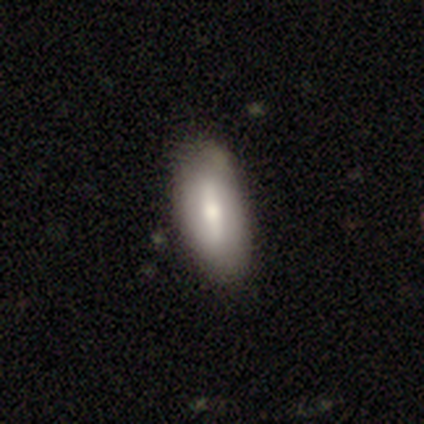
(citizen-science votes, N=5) Q: Smooth or featured?
A: smooth (60%); runner-up: featured or disk (40%)
Q: How rounded?
A: in between (67%); runner-up: cigar-shaped (33%)
Q: Merging?
A: none (100%)